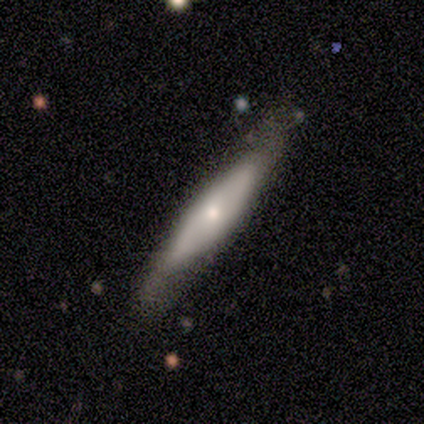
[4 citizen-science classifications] smooth_or_featured: featured or disk (p=0.75) [alt: smooth p=0.25]
disk_edge_on: no (p=0.67) [alt: yes p=0.33]
bar: no (p=1.00)
has_spiral_arms: no (p=1.00)
bulge_size: moderate (p=0.50) [tied with: small p=0.50]
merging: none (p=1.00)